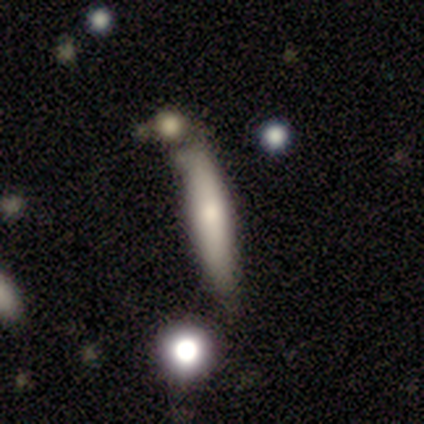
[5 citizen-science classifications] smooth-or-featured: smooth: 80% | featured or disk: 20% | star or artifact: 0%
  how-rounded: in between: 50% (tied) | cigar-shaped: 50% (tied) | round: 0%
  merging: minor disturbance: 80% | major disturbance: 20% | none: 0% | merger: 0%